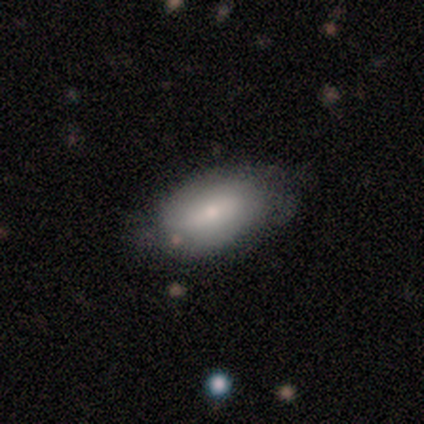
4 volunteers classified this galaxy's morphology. Smooth or featured? 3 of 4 (75%) said smooth. How rounded? 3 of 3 (100%) said in between. Merging? 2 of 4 (50%, tied with minor disturbance) said none.